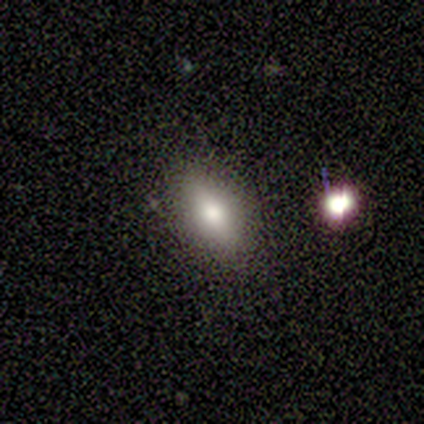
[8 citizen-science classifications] Q: Smooth or featured?
A: smooth (38%); tied with: star or artifact (38%)
Q: How rounded?
A: in between (100%)
Q: Merging?
A: none (100%)